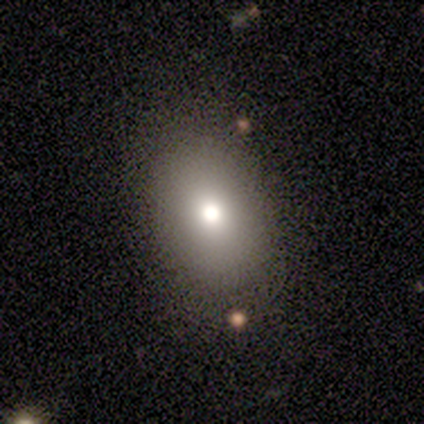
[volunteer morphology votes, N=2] Overall: smooth (100%). How rounded: round (50%, tied with in between). Merging: none (50%, tied with major disturbance).